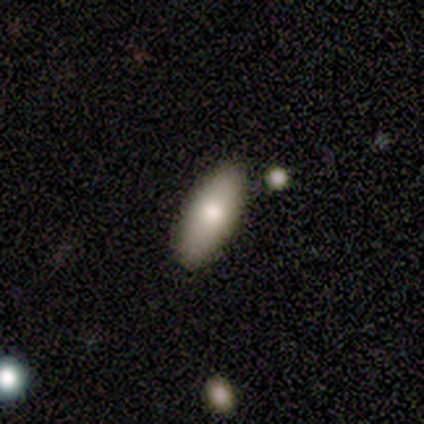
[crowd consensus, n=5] A smooth galaxy with no disk features (60%) that is in between round and cigar-shaped (67%). Merging: none (33%, tied with minor disturbance and merger).